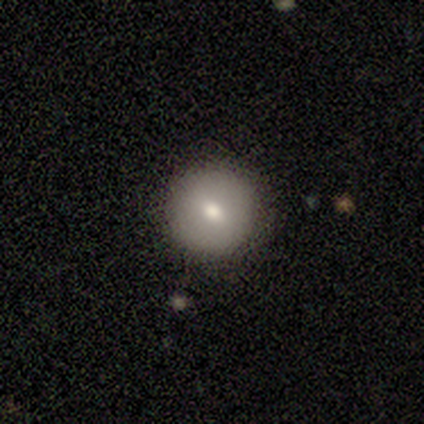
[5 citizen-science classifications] This is clearly a smooth galaxy (100%). How rounded: clearly round (100%). Merging: clearly none (100%).